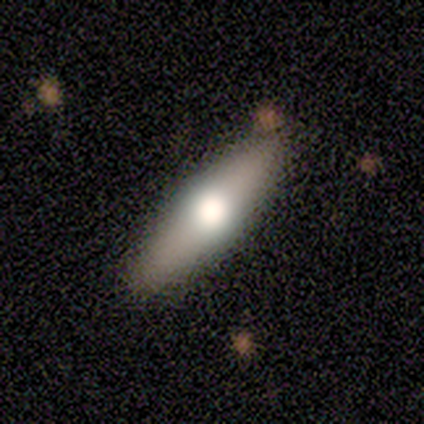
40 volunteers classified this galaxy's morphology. Smooth or featured?
  - smooth: 52% *
  - featured or disk: 42%
  - star or artifact: 5%
How rounded?
  - in between: 52% *
  - cigar-shaped: 48%
  - round: 0%
Merging?
  - none: 66% *
  - minor disturbance: 3%
  - major disturbance: 0%
  - merger: 0%